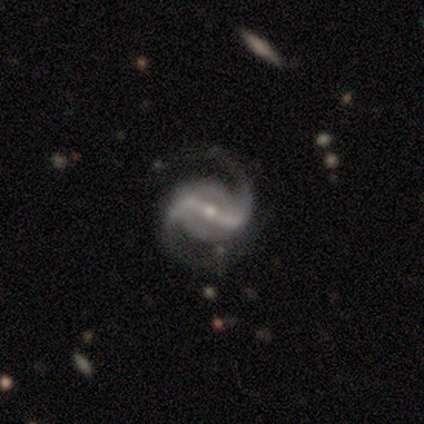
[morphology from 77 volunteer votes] smooth-or-featured: featured or disk: 99% | smooth: 1% | star or artifact: 0%
  disk-edge-on: no: 95% | yes: 5%
    bar: strong: 79% | weak: 12% | no: 8%
    has-spiral-arms: yes: 99% | no: 1%
      spiral-winding: medium: 45% | loose: 42% | tight: 13%
      spiral-arm-count: 2: 100% | 1: 0% | 3: 0% | 4: 0% | more than 4: 0% | can't tell: 0%
    bulge-size: small: 65% | moderate: 31% | large: 3% | none: 1% | dominant: 0%
  merging: none: 73% | minor disturbance: 13% | major disturbance: 12% | merger: 3%